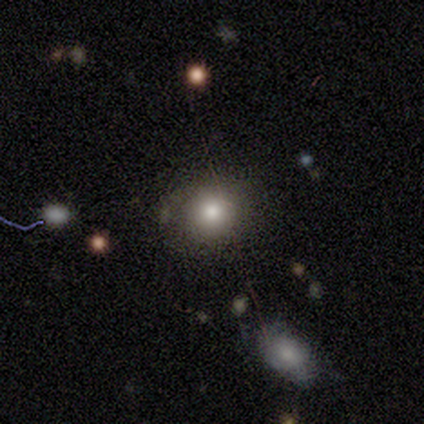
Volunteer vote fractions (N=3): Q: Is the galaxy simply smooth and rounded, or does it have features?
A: smooth — 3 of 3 (100%).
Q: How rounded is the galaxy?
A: round — 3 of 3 (100%).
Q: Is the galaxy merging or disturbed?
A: none — 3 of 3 (100%).